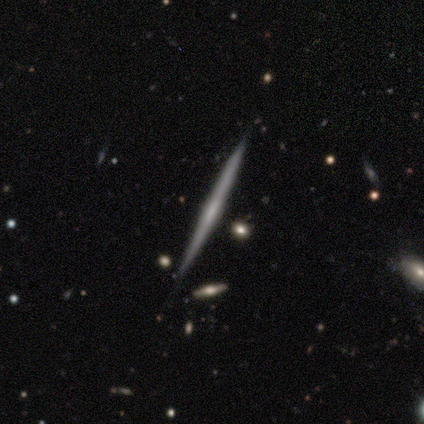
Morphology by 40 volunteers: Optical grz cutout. It shows a featured or disk galaxy (95%) viewed edge-on (100%) with no central bulge (47%). Merging: none (57%).